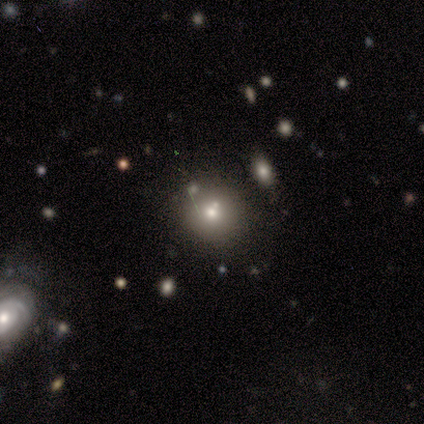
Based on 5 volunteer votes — Morphology: type=smooth (60%); roundness=round (100%); merging=none (75%).